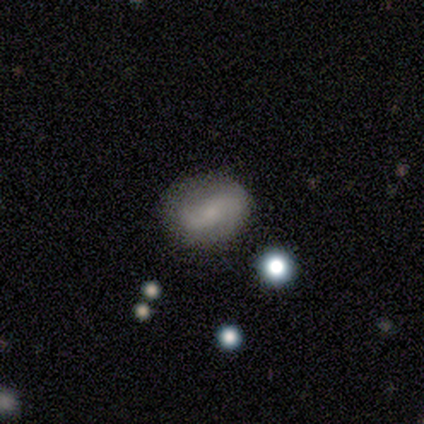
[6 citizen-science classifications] smooth-or-featured: smooth: 83% | featured or disk: 17% | star or artifact: 0%
  how-rounded: in between: 60% | round: 40% | cigar-shaped: 0%
  merging: none: 83% | major disturbance: 17% | minor disturbance: 0% | merger: 0%